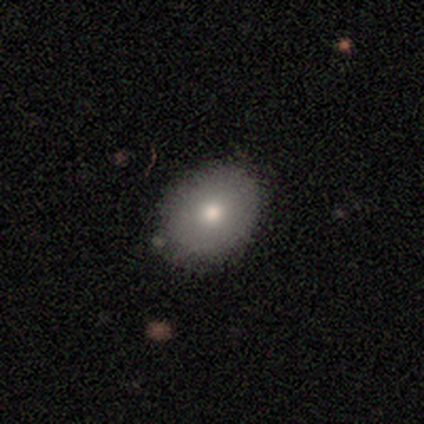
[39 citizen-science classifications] This is likely a smooth galaxy (79%). How rounded: possibly in between (55%). Merging: clearly none (97%).